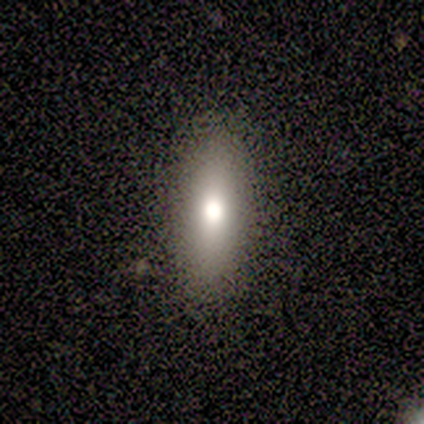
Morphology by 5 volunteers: smooth-or-featured: smooth: 100% | featured or disk: 0% | star or artifact: 0%
  how-rounded: in between: 60% | cigar-shaped: 40% | round: 0%
  merging: none: 60% | minor disturbance: 20% | major disturbance: 20% | merger: 0%